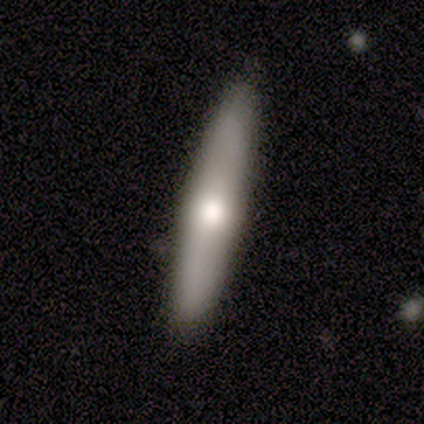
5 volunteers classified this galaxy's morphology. This is marginally a smooth galaxy (40%, tied with featured or disk). How rounded: possibly in between (50%, tied with cigar-shaped). Merging: clearly none (100%).